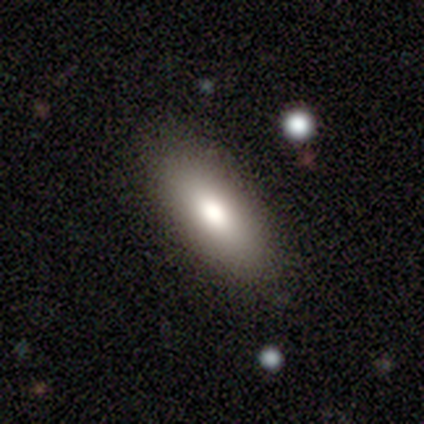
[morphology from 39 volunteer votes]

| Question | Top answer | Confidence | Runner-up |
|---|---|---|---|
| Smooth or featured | smooth | 77% | featured or disk (13%) |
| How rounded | in between | 77% | cigar-shaped (23%) |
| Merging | none | 83% | minor disturbance (11%) |